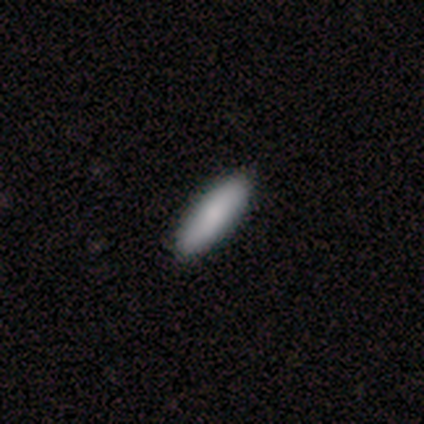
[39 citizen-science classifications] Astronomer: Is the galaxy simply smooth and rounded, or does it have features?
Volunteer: smooth — 85%.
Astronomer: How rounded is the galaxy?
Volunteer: cigar-shaped — 58% (runner-up: in between, 42%).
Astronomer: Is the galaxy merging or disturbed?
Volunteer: none — 95%.